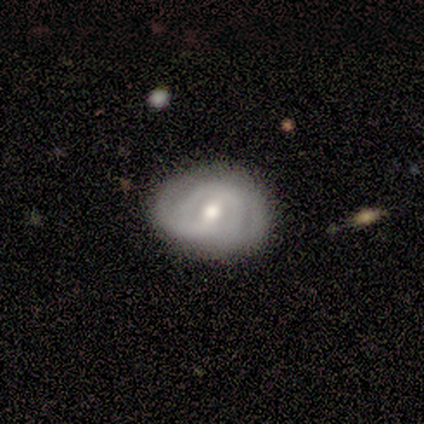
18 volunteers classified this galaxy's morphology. This appears to be a featured or disk galaxy (78%) with a weak bar (64%), tight (70%) spiral arms (91%) and a moderate central bulge (82%). Merging: none (76%).